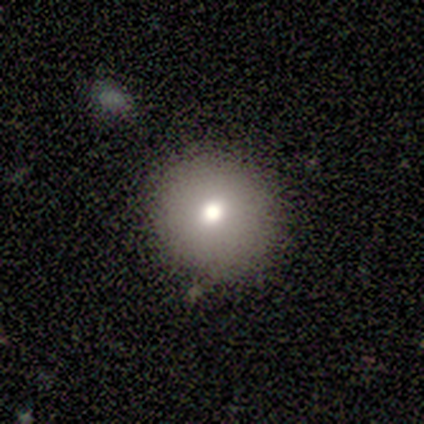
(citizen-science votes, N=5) Smooth or featured? smooth (60%)
How rounded? round (100%)
Merging? none (100%)